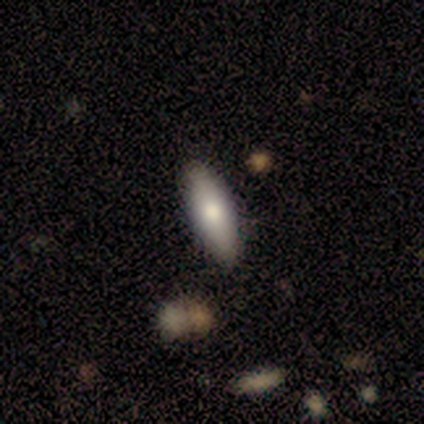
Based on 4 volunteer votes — Smooth or featured? smooth (100%)
How rounded? in between (100%)
Merging? none (100%)